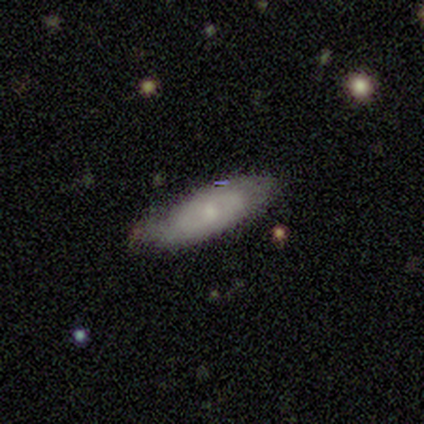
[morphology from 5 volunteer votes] Smooth or featured?
  - featured or disk: 80% *
  - smooth: 20%
  - star or artifact: 0%
Edge-on disk?
  - no: 100% *
  - yes: 0%
Bar?
  - weak: 75% *
  - no: 25%
  - strong: 0%
Spiral arms?
  - yes: 100% *
  - no: 0%
Spiral winding?
  - medium: 75% *
  - loose: 25%
  - tight: 0%
Spiral arm count?
  - 2: 50% * (tied)
  - can't tell: 50% * (tied)
  - 1: 0%
  - 3: 0%
  - 4: 0%
  - more than 4: 0%
Bulge size?
  - small: 75% *
  - none: 25%
  - dominant: 0%
  - large: 0%
  - moderate: 0%
Merging?
  - none: 60% *
  - minor disturbance: 40%
  - major disturbance: 0%
  - merger: 0%